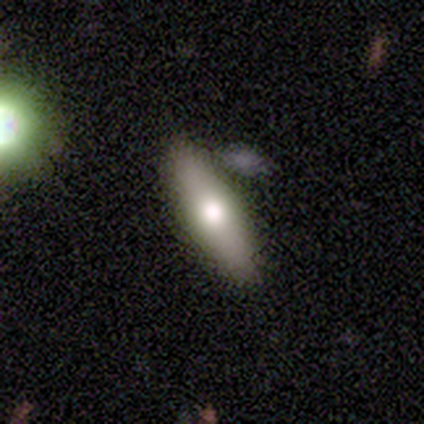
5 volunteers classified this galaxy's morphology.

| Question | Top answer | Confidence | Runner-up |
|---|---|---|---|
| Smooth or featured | smooth | 60% | featured or disk (40%) |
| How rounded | cigar-shaped | 67% | in between (33%) |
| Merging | none | 100% | — |